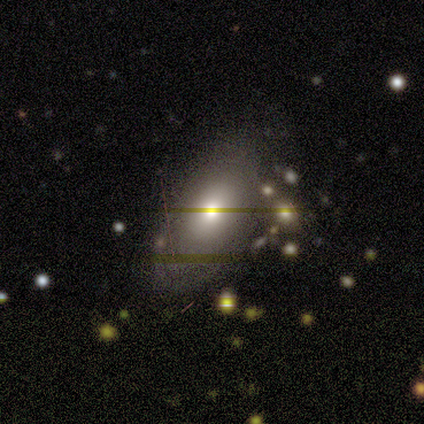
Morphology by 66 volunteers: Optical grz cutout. It shows a smooth galaxy with no disk features (56%) that is in between round and cigar-shaped (97%). Merging: none (60%).